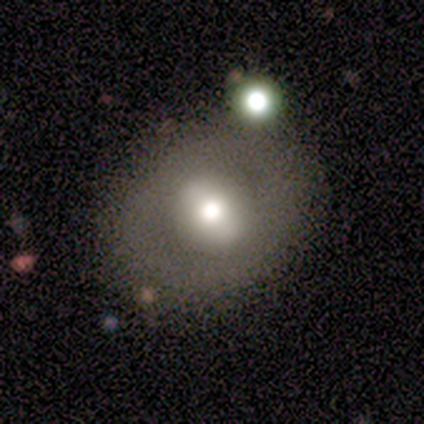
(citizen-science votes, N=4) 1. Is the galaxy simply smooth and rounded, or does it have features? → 50% smooth (tied), 50% featured or disk (tied), 0% star or artifact.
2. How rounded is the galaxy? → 50% round (tied), 50% in between (tied), 0% cigar-shaped.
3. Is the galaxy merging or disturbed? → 50% none (tied), 50% minor disturbance (tied), 0% major disturbance, 0% merger.